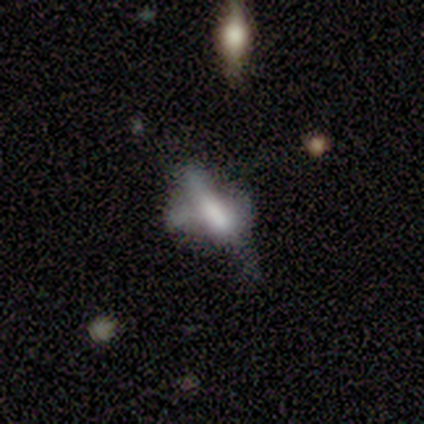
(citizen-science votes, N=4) Smooth or featured? smooth (75%)
How rounded? cigar-shaped (100%)
Merging? major disturbance (75%)